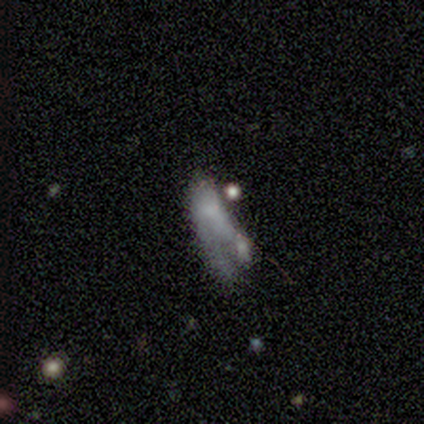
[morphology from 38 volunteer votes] Smooth or featured? smooth (47%)
How rounded? in between (72%)
Merging? merger (30%)